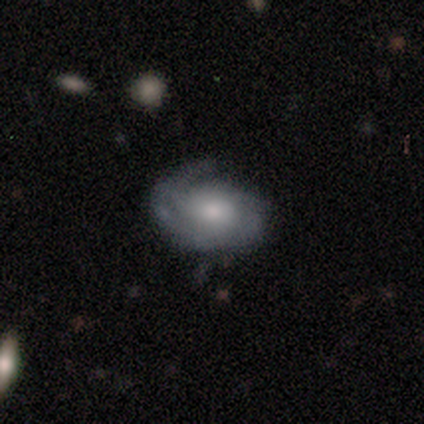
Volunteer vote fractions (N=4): smooth 50% (tied), featured or disk 50% (tied), star or artifact 0%. Down the decision tree: how rounded — in between (100%); merging — none (50%, tied with minor disturbance).